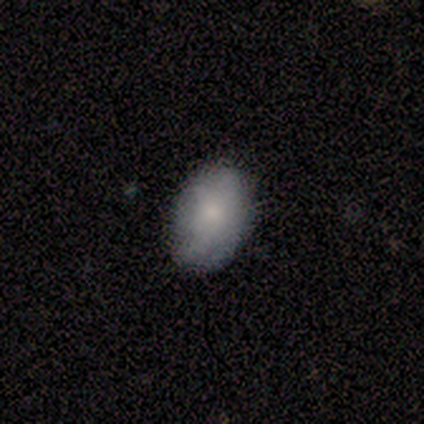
Smooth or featured: smooth — 60% (featured or disk — 40%)
How rounded: round — 67% (in between — 33%)
Merging: none — 40% (tied with minor disturbance — 40%)